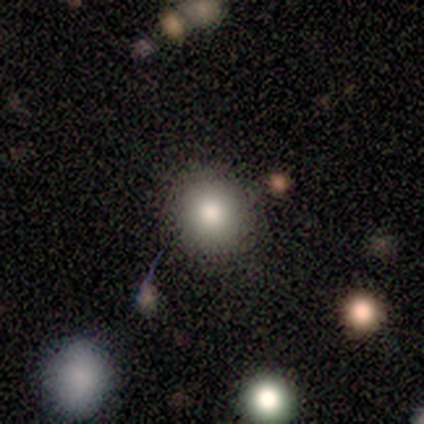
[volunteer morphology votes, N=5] type=smooth (100%); roundness=round (100%); merging=none (100%).